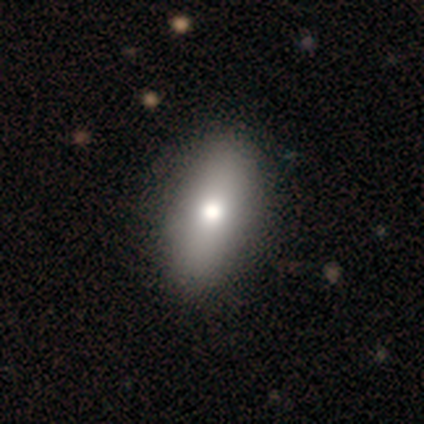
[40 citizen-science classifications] This is clearly a smooth galaxy (82%). How rounded: clearly in between (91%). Merging: possibly none (59%).